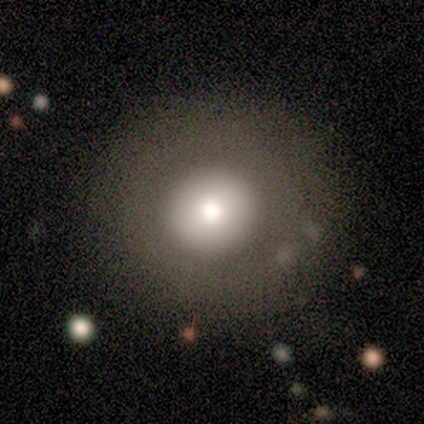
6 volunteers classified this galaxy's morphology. smooth_or_featured: smooth (p=0.67) [alt: featured or disk p=0.33]
how_rounded: round (p=1.00)
merging: none (p=0.83) [alt: minor disturbance p=0.17]